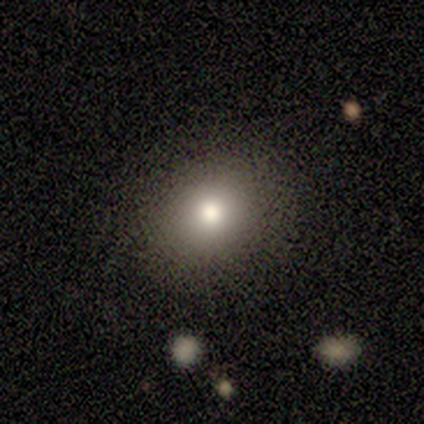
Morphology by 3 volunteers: Overall: smooth (100%). How rounded: round (100%). Merging: none (100%).